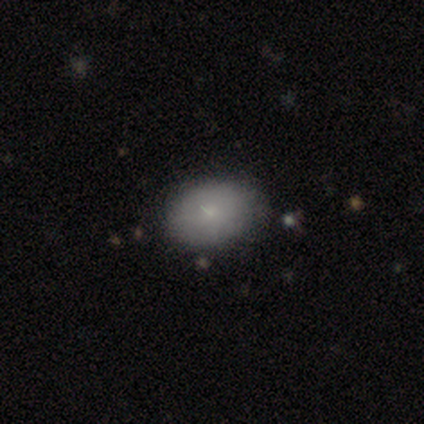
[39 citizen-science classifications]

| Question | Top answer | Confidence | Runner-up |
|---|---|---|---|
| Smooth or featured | smooth | 74% | featured or disk (15%) |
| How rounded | in between | 76% | round (21%) |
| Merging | none | 89% | minor disturbance (9%) |